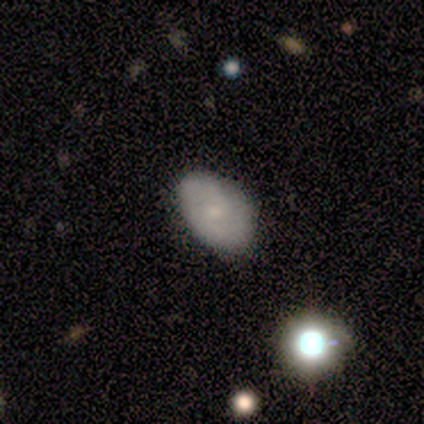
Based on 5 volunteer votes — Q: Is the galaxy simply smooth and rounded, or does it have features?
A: smooth — 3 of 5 (60%).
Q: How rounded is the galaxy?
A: in between — 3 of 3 (100%).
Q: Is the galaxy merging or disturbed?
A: none — 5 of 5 (100%).